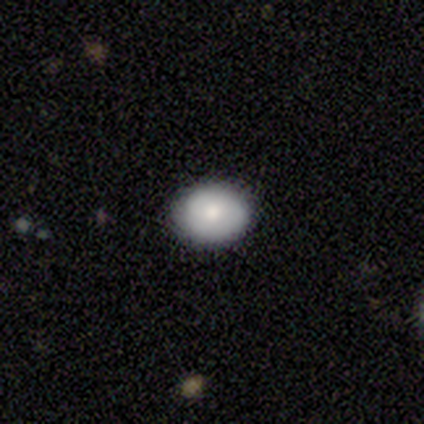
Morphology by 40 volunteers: This appears to be a smooth galaxy with no disk features (85%) that is in between round and cigar-shaped (53%). Merging: none (81%).